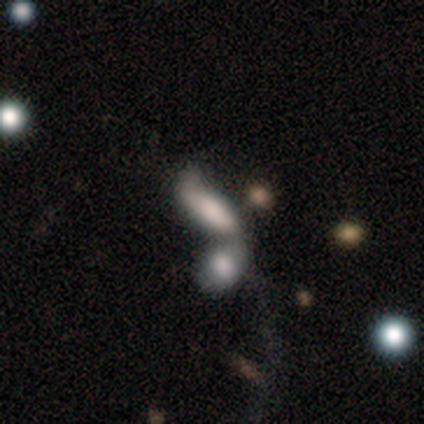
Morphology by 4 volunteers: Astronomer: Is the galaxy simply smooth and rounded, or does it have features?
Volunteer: smooth — 50%, tied with featured or disk at 50%.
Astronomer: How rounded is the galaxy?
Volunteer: in between — 50%, tied with cigar-shaped at 50%.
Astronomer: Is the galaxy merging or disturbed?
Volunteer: merger — 100%.